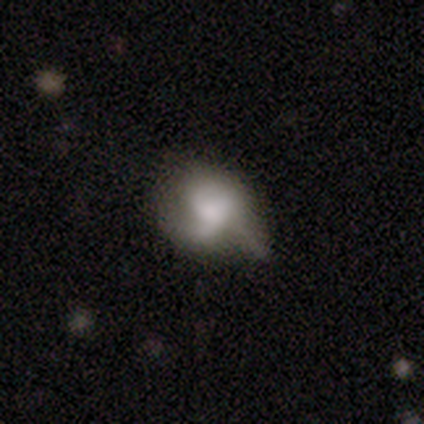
Smooth or featured?
  - smooth: 54% *
  - featured or disk: 36%
  - star or artifact: 10%
How rounded?
  - in between: 76% *
  - round: 24%
  - cigar-shaped: 0%
Merging?
  - minor disturbance: 37% *
  - none: 31%
  - major disturbance: 26%
  - merger: 6%